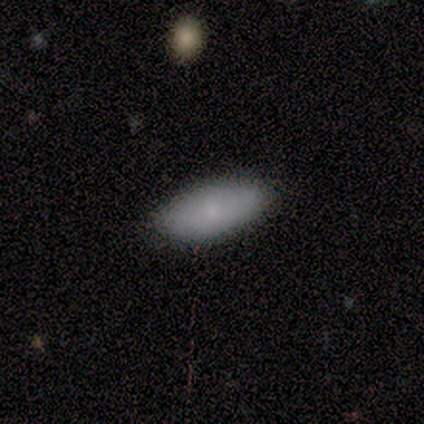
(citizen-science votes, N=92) Smooth or featured? smooth (77%)
How rounded? in between (93%)
Merging? none (92%)